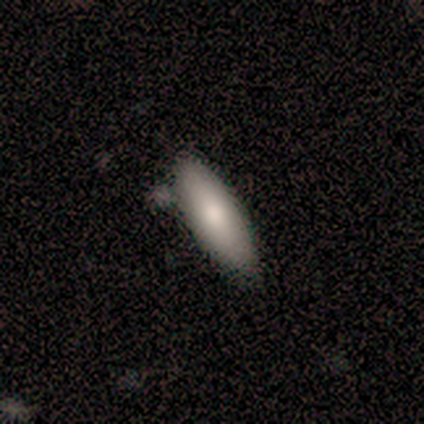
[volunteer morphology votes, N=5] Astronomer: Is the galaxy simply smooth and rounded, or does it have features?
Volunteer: smooth — 100%.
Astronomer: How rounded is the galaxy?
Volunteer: cigar-shaped — 80%.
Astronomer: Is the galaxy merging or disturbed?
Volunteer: none — 60% (runner-up: minor disturbance, 40%).